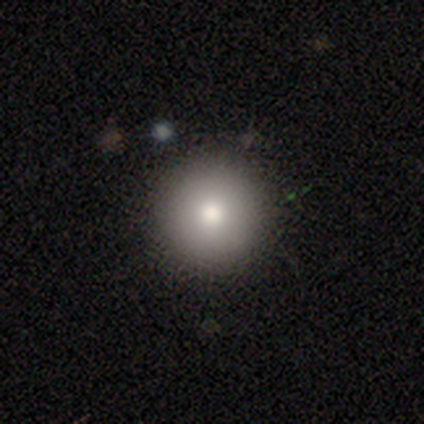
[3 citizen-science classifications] A featured or disk galaxy (67%) with no bar (100%), no spiral arms (100%) and a moderate central bulge (50%, tied with small).

Vote fractions:
- Smooth or featured? featured or disk: 67% / smooth: 33% / star or artifact: 0%
- Edge-on disk? no: 100% / yes: 0%
- Bar? no: 100% / strong: 0% / weak: 0%
- Spiral arms? no: 100% / yes: 0%
- Bulge size? moderate: 50% (tied) / small: 50% (tied) / dominant: 0% / large: 0% / none: 0%
- Merging? none: 100% / minor disturbance: 0% / major disturbance: 0% / merger: 0%